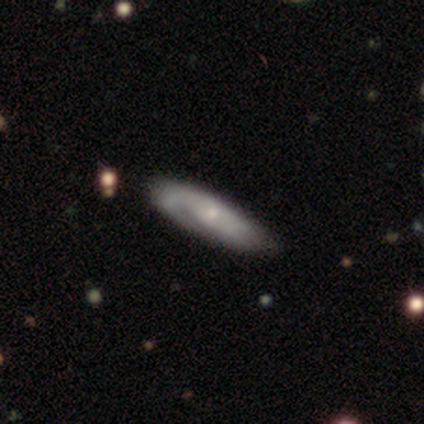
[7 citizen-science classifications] smooth_or_featured: featured or disk (p=0.71) [alt: smooth p=0.29]
disk_edge_on: no (p=1.00)
bar: no (p=0.60) [alt: weak p=0.40]
has_spiral_arms: yes (p=0.80) [alt: no p=0.20]
spiral_winding: tight (p=0.50) [tied with: medium p=0.50]
spiral_arm_count: 1 (p=0.50) [tied with: 2 p=0.50]
bulge_size: small (p=0.60) [alt: moderate p=0.40]
merging: none (p=0.71) [alt: minor disturbance p=0.14]